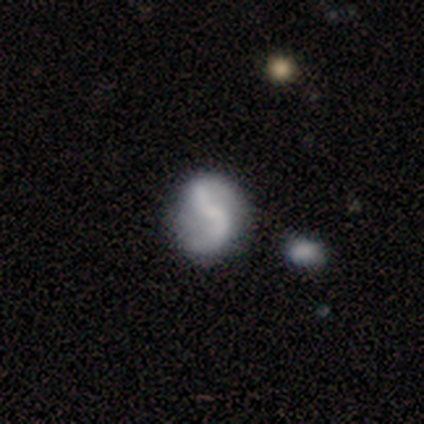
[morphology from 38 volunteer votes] This appears to be a featured or disk galaxy (74%) with a weak bar (50%), 2 (92%) loose (62%) spiral arms (86%) and a small central bulge (46%). Merging: none (37%).